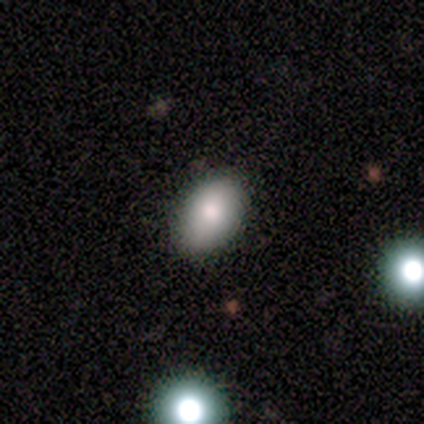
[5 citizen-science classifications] smooth_or_featured: smooth (p=1.00)
how_rounded: in between (p=0.80) [alt: round p=0.20]
merging: none (p=0.80) [alt: major disturbance p=0.20]